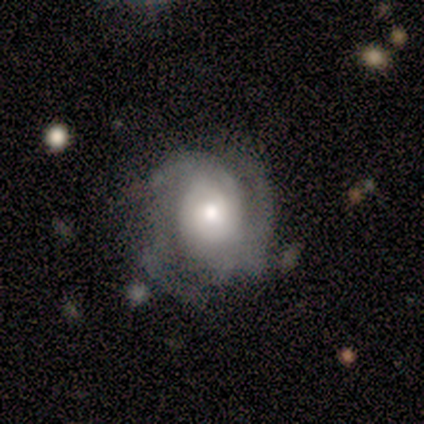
A featured or disk galaxy (60%) with no bar (67%), 3 (67%) tight (67%) spiral arms (100%) and a moderate central bulge (100%). Merging: none (50%).